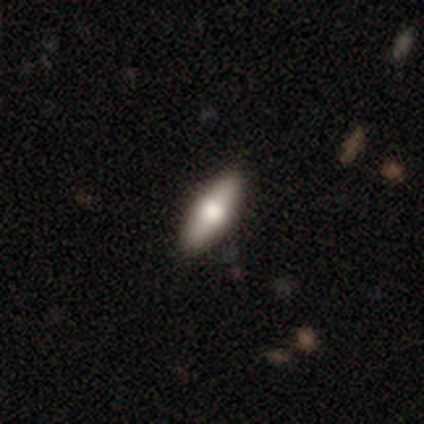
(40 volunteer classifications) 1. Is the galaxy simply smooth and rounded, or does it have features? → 70% smooth, 22% featured or disk, 8% star or artifact.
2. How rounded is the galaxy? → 68% in between, 29% cigar-shaped, 4% round.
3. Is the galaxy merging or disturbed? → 92% none, 3% minor disturbance, 3% major disturbance, 3% merger.